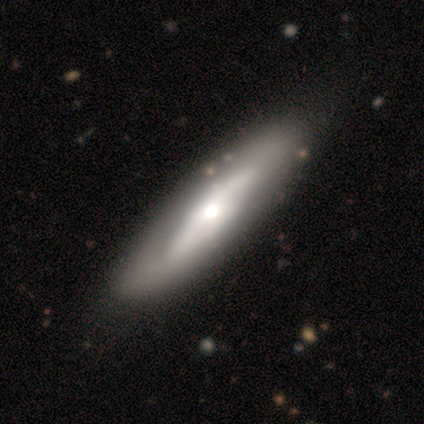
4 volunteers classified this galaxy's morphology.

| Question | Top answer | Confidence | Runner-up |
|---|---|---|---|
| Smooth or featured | smooth | 50% | tied: featured or disk (50%) |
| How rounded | cigar-shaped | 100% | — |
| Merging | none | 75% | minor disturbance (25%) |